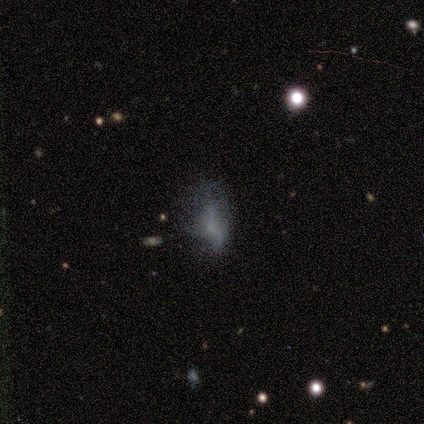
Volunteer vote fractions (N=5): smooth-or-featured: smooth: 60% | star or artifact: 40% | featured or disk: 0%
  how-rounded: in between: 100% | round: 0% | cigar-shaped: 0%
  merging: none: 33% (tied) | minor disturbance: 33% (tied) | major disturbance: 33% (tied) | merger: 0%